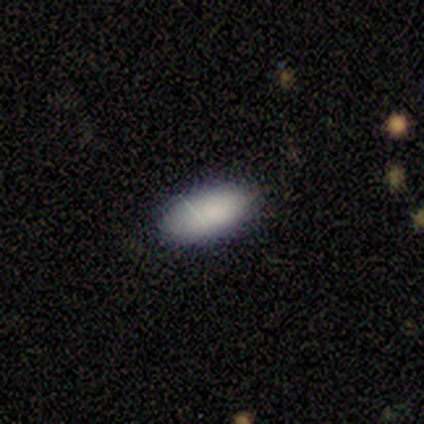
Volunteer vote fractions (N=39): Overall: smooth (87%). How rounded: in between (100%). Merging: none (91%).